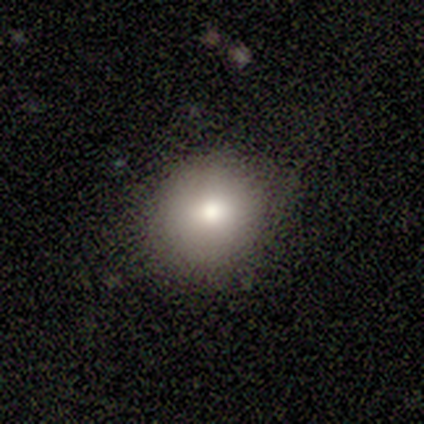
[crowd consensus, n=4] Volunteers were most divided on "smooth or featured": smooth: 75%, featured or disk: 25%, star or artifact: 0%. More confident: how rounded — round (100%); merging — none (75%).